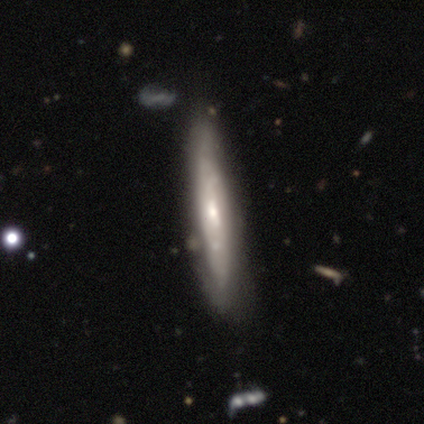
featured or disk 70%, smooth 27%, star or artifact 3%. Down the decision tree: edge-on disk — yes (57%); edge-on bulge — none (55%); merging — none (64%).